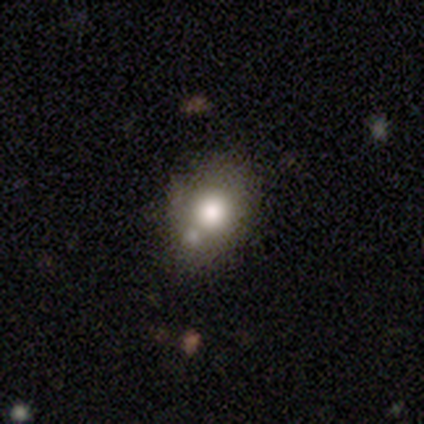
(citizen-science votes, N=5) Smooth or featured: smooth — 80% (featured or disk — 20%)
How rounded: round — 100%
Merging: none — 80% (major disturbance — 20%)